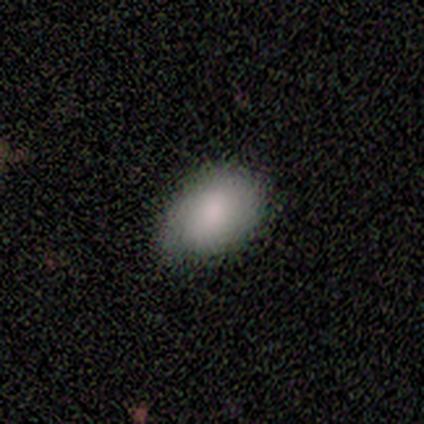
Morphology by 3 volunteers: Volunteers were most divided on "how rounded" (2-way tie): round: 50%, in between: 50%, cigar-shaped: 0%. More confident: merging — major disturbance (100%); smooth or featured — smooth (67%).